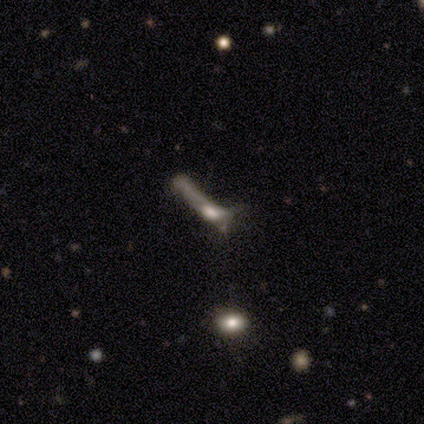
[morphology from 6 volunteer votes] Smooth or featured: smooth — 50% (tied with featured or disk — 50%)
How rounded: cigar-shaped — 100%
Merging: major disturbance — 67% (minor disturbance — 33%)